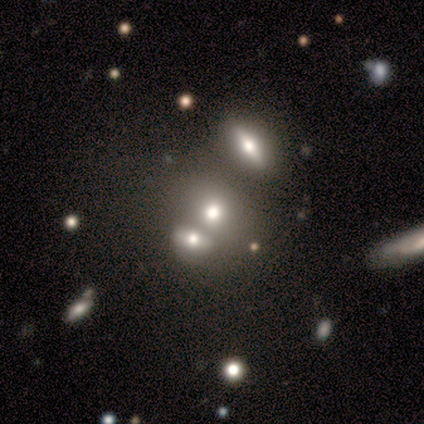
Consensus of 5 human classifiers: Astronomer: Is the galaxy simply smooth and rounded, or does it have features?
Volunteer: smooth — 60% (runner-up: star or artifact, 40%).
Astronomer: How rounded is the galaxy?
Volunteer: round — 67%.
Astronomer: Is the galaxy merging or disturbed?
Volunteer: merger — 100%.